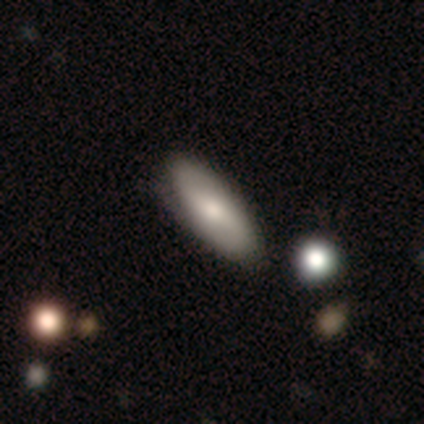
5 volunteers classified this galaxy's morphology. Q: Smooth or featured?
A: smooth (80%); runner-up: featured or disk (20%)
Q: How rounded?
A: in between (100%)
Q: Merging?
A: none (80%); runner-up: minor disturbance (20%)